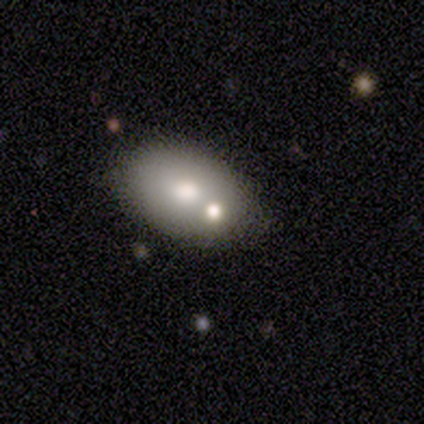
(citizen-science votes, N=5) This appears to be a smooth galaxy with no disk features (40%, tied with featured or disk) that is round (50%, tied with in between). Merging: none (75%).